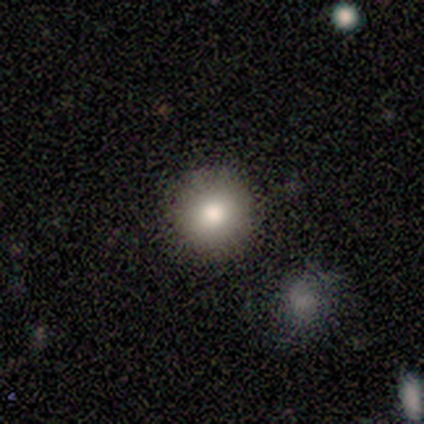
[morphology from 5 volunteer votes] Overall: smooth (80%). How rounded: round (100%). Merging: none (80%).